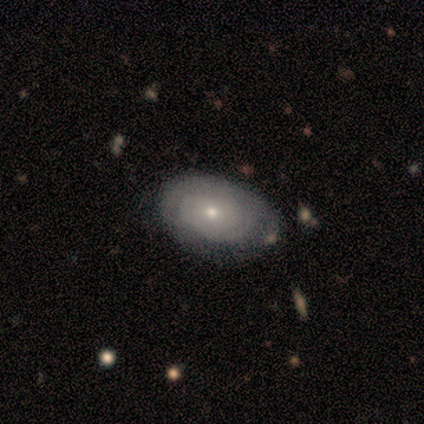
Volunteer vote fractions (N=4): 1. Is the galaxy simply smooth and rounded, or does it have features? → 100% featured or disk, 0% smooth, 0% star or artifact.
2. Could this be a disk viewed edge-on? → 100% no, 0% yes.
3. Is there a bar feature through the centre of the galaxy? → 100% no, 0% strong, 0% weak.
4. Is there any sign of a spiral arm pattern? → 75% yes, 25% no.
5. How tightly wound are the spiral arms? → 67% loose, 33% tight, 0% medium.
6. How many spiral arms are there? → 33% 1 (tied), 33% 2 (tied), 33% can't tell (tied), 0% 3, 0% 4, 0% more than 4.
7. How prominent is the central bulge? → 75% small, 25% large, 0% dominant, 0% moderate, 0% none.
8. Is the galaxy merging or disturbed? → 75% none, 25% major disturbance, 0% minor disturbance, 0% merger.